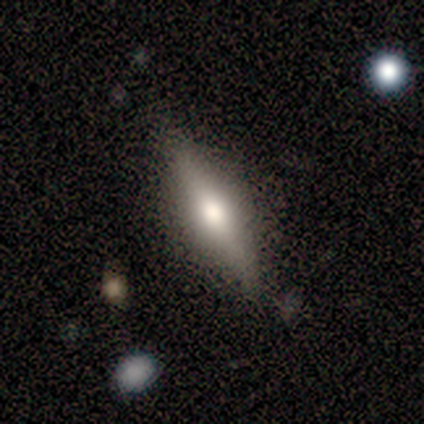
A smooth galaxy with no disk features (47%) that is cigar-shaped (56%).

Vote fractions:
- Smooth or featured? smooth: 47% / featured or disk: 45% / star or artifact: 8%
- How rounded? cigar-shaped: 56% / in between: 44% / round: 0%
- Merging? none: 80% / merger: 9% / minor disturbance: 6% / major disturbance: 6%